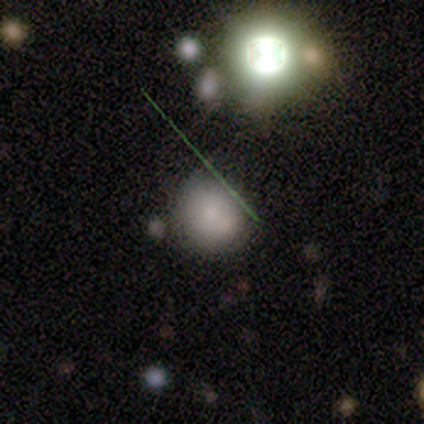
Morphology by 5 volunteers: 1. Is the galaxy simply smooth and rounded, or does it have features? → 80% smooth, 20% featured or disk, 0% star or artifact.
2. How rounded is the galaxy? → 100% round, 0% in between, 0% cigar-shaped.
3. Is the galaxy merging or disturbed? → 80% none, 20% merger, 0% minor disturbance, 0% major disturbance.